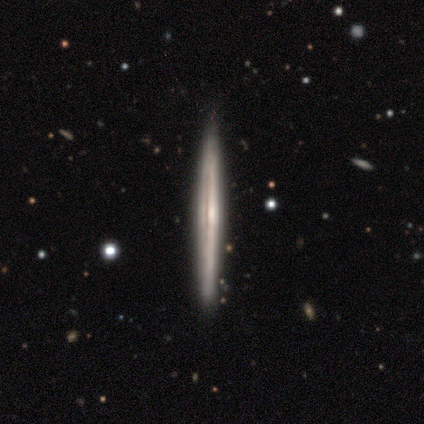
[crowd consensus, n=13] Q: Smooth or featured?
A: featured or disk (85%); runner-up: smooth (15%)
Q: Edge-on disk?
A: yes (91%); runner-up: no (9%)
Q: Edge-on bulge?
A: none (70%); runner-up: rounded (30%)
Q: Merging?
A: none (100%)